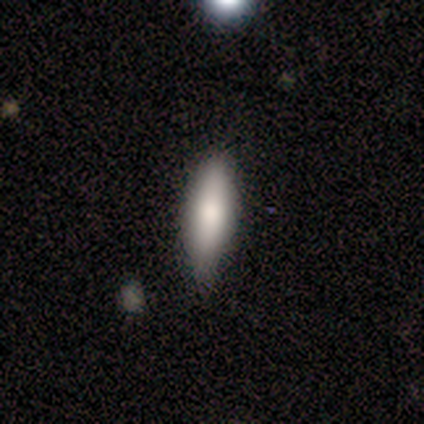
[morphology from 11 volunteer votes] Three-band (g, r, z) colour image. It shows a smooth galaxy with no disk features (91%) that is cigar-shaped (60%). Merging: none (82%).